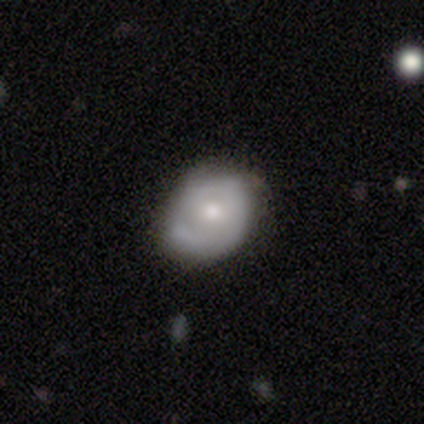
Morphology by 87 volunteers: smooth_or_featured: featured or disk (p=0.53) [alt: smooth p=0.43]
disk_edge_on: no (p=1.00)
bar: no (p=0.72) [alt: weak p=0.22]
has_spiral_arms: yes (p=0.70) [alt: no p=0.30]
spiral_winding: tight (p=0.50) [alt: medium p=0.34]
spiral_arm_count: 2 (p=0.41) [alt: 1 p=0.28]
bulge_size: moderate (p=0.70) [alt: small p=0.20]
merging: none (p=0.53) [alt: minor disturbance p=0.34]